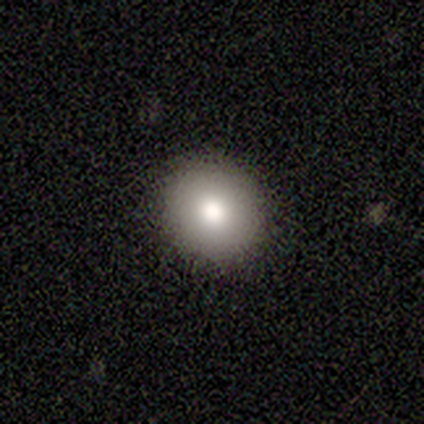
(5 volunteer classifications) Smooth or featured: smooth — 80% (star or artifact — 20%)
How rounded: round — 100%
Merging: none — 100%